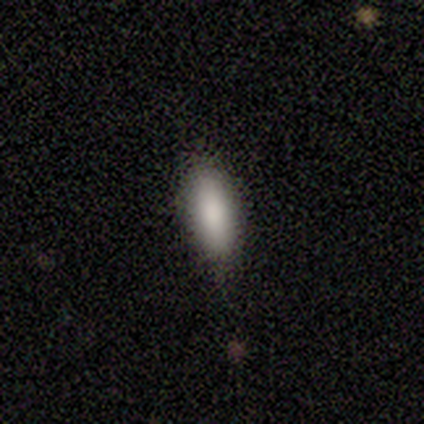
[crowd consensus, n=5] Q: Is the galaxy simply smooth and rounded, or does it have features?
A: smooth — 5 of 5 (100%).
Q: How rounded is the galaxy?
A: in between — 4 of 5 (80%).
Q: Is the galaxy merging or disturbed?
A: none — 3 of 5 (60%).